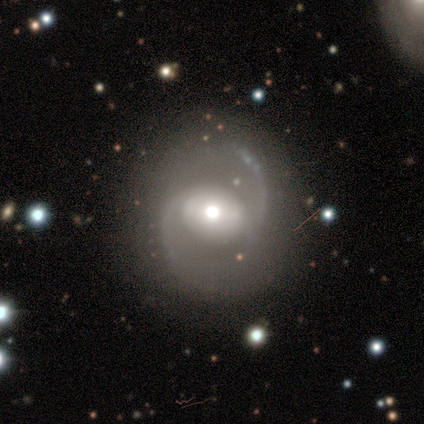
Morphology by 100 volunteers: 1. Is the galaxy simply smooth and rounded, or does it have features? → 90% featured or disk, 6% smooth, 4% star or artifact.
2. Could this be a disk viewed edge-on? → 97% no, 3% yes.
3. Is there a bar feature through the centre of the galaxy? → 37% no, 34% strong, 29% weak.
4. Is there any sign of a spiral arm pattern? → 98% yes, 2% no.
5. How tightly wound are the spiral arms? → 49% medium, 46% loose, 5% tight.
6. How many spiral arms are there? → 99% 2, 1% can't tell, 0% 1, 0% 3, 0% 4, 0% more than 4.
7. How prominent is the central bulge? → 55% moderate, 37% large, 5% small, 2% dominant, 1% none.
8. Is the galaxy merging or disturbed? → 79% none, 11% minor disturbance, 6% major disturbance, 3% merger.